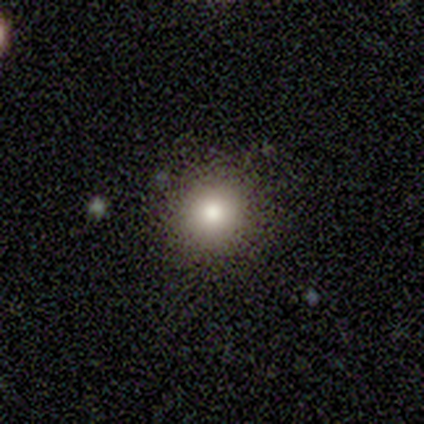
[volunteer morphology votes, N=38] Smooth or featured: smooth — 82% (star or artifact — 13%)
How rounded: round — 87% (in between — 13%)
Merging: none — 88% (minor disturbance — 9%)